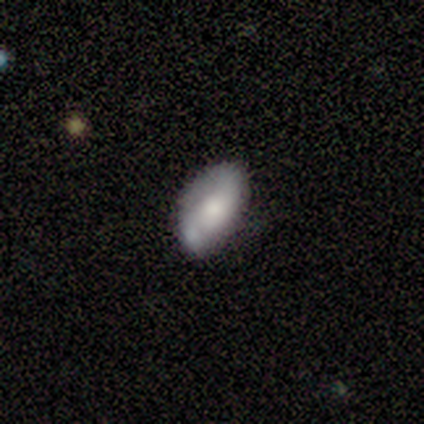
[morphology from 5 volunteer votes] smooth 80%, featured or disk 20%, star or artifact 0%. Down the decision tree: how rounded — in between (75%); merging — none (60%).